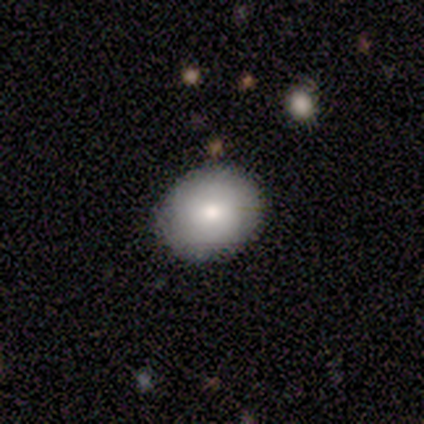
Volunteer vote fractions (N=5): A smooth galaxy with no disk features (100%) that is round (80%).

Vote fractions:
- Smooth or featured? smooth: 100% / featured or disk: 0% / star or artifact: 0%
- How rounded? round: 80% / in between: 20% / cigar-shaped: 0%
- Merging? none: 100% / minor disturbance: 0% / major disturbance: 0% / merger: 0%